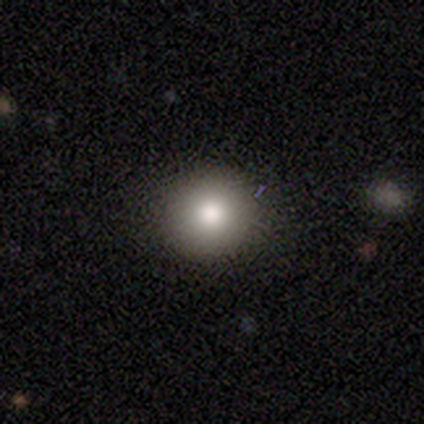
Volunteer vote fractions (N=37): smooth 89%, featured or disk 5%, star or artifact 5%. Down the decision tree: how rounded — round (97%); merging — none (97%).